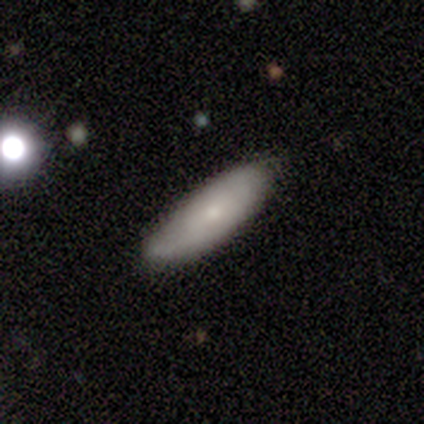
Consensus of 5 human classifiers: Q: Smooth or featured?
A: smooth (80%); runner-up: star or artifact (20%)
Q: How rounded?
A: cigar-shaped (75%); runner-up: in between (25%)
Q: Merging?
A: minor disturbance (75%); runner-up: none (25%)